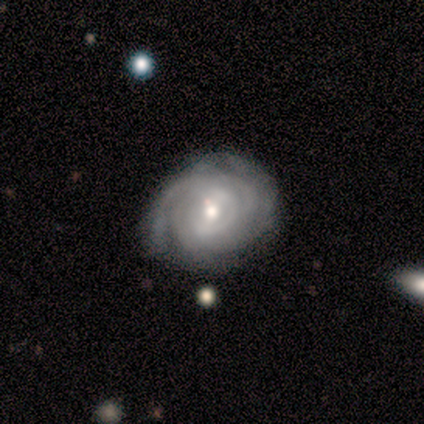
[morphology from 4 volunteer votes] This is likely a featured or disk galaxy (75%). It is clearly not viewed edge-on (100%). Bar: likely weak (67%). Spiral arm pattern: clearly yes (100%). Spiral arm count: likely 2 (67%). Spiral winding: likely tight (67%). Central bulge: likely small (67%). Merging: clearly none (100%).